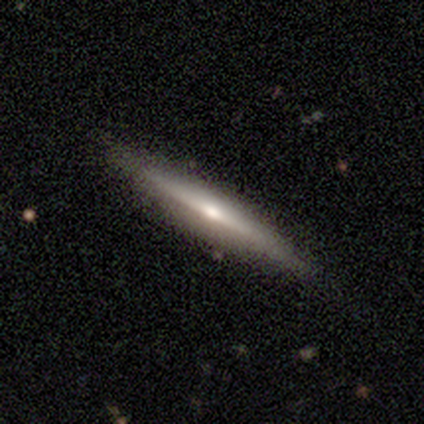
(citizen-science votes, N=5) featured or disk 100%, smooth 0%, star or artifact 0%. Down the decision tree: edge-on disk — yes (100%); edge-on bulge — rounded (100%); merging — none (80%).